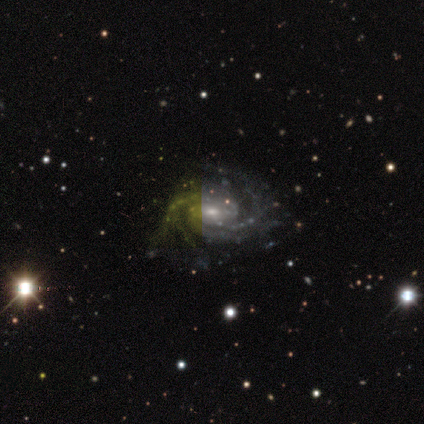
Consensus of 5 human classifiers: Smooth or featured? featured or disk (100%)
Edge-on disk? no (100%)
Bar? weak (60%)
Spiral arms? yes (100%)
Spiral winding? tight (80%)
Spiral arm count? 3 (60%)
Bulge size? moderate (60%)
Merging? none (100%)